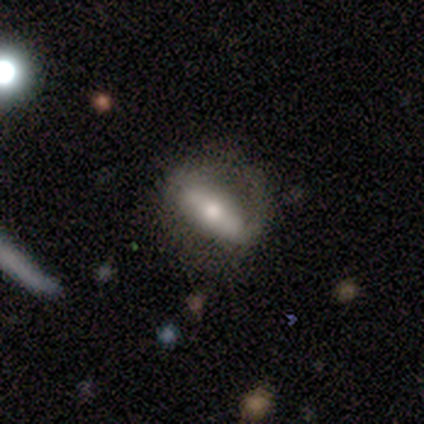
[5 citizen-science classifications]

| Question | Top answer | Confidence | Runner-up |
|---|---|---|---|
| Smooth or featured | featured or disk | 80% | smooth (20%) |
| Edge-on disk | yes | 75% | no (25%) |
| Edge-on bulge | rounded | 100% | — |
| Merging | none | 100% | — |